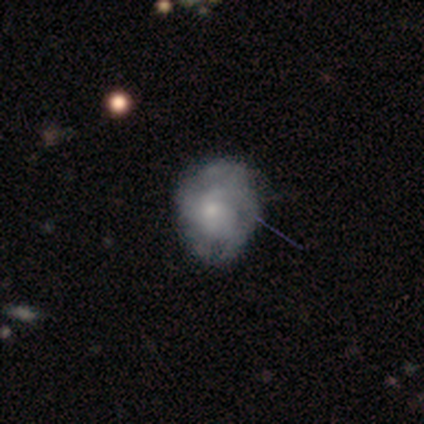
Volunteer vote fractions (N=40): Morphology: type=featured or disk (55%); edge-on=no (100%); bar=no (86%); spiral arms=yes (59%); winding=tight (46%, tied with medium); arm count=can't tell (46%); bulge=small (55%); merging=minor disturbance (46%).